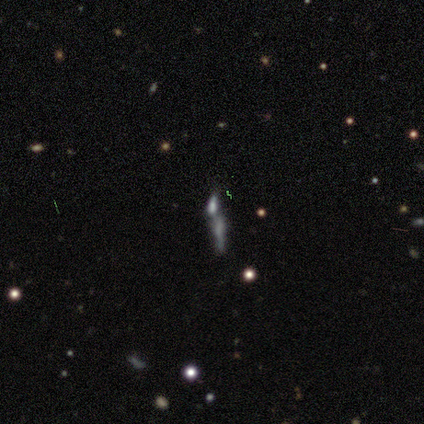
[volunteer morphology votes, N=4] Smooth or featured?
  - smooth: 50% * (tied)
  - featured or disk: 50% * (tied)
  - star or artifact: 0%
How rounded?
  - cigar-shaped: 100% *
  - round: 0%
  - in between: 0%
Merging?
  - minor disturbance: 50% *
  - none: 25%
  - merger: 25%
  - major disturbance: 0%